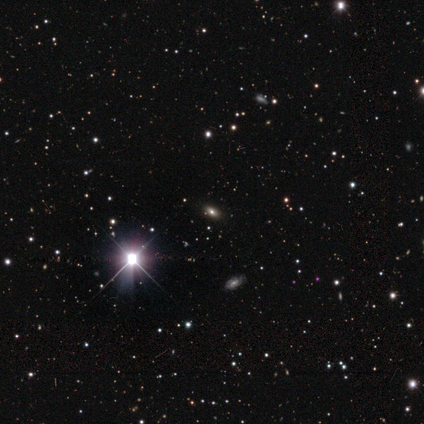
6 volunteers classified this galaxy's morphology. type=star or artifact (67%).